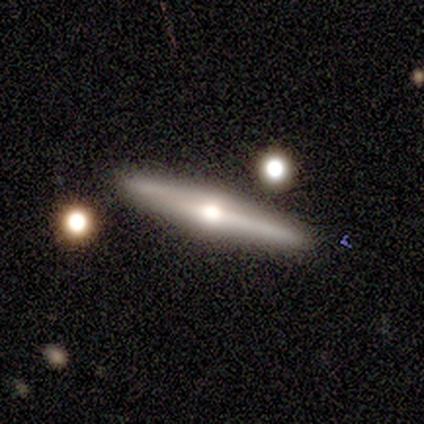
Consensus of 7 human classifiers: featured or disk 71%, smooth 29%, star or artifact 0%. Down the decision tree: edge-on disk — yes (100%); edge-on bulge — rounded (100%); merging — none (100%).